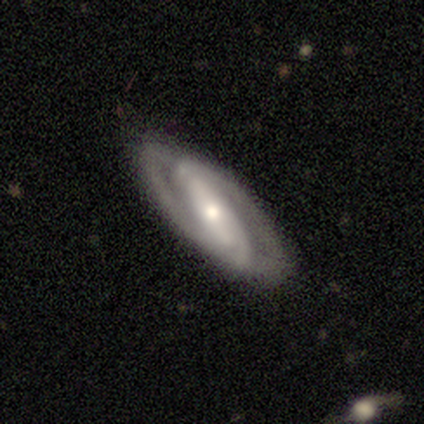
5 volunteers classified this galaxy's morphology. Q: Smooth or featured?
A: featured or disk (100%)
Q: Edge-on disk?
A: no (100%)
Q: Bar?
A: strong (60%); runner-up: weak (40%)
Q: Spiral arms?
A: yes (100%)
Q: Spiral winding?
A: tight (60%); runner-up: medium (20%)
Q: Spiral arm count?
A: 2 (40%); runner-up: 1 (20%)
Q: Bulge size?
A: small (60%); runner-up: large (20%)
Q: Merging?
A: none (100%)